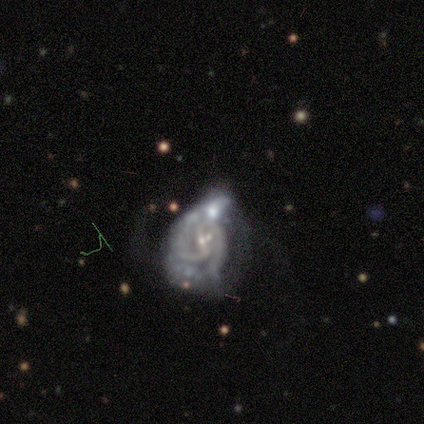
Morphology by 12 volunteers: Overall: featured or disk (92%). Edge-on disk: no (100%). Bar: strong (45%, tied with weak). Spiral arms: yes (100%). Spiral arm count: 2 (73%). Spiral winding: tight (36%, tied with medium). Bulge size: small (82%). Merging: merger (55%; major disturbance 45%).